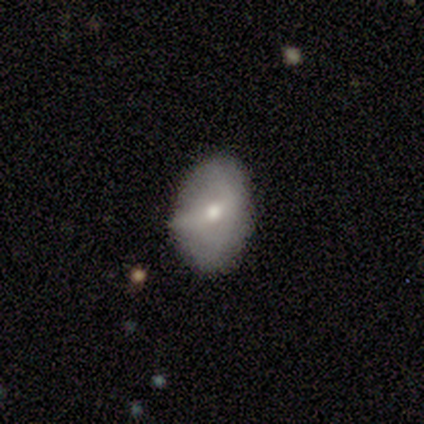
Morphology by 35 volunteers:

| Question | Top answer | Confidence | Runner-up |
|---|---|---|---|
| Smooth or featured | smooth | 66% | featured or disk (26%) |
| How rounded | in between | 74% | round (22%) |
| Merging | none | 62% | minor disturbance (31%) |